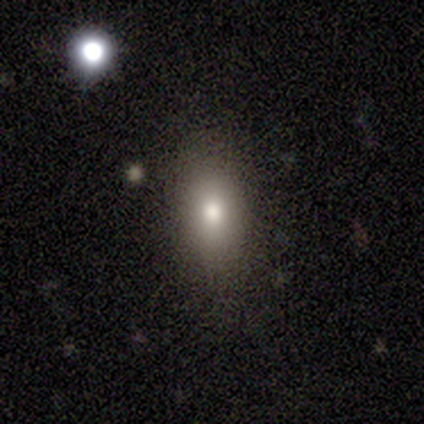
Overall: smooth (40%, tied with star or artifact). How rounded: in between (50%, tied with cigar-shaped). Merging: none (100%).